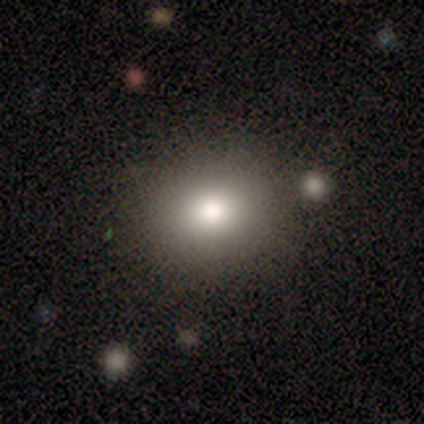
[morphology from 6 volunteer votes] Smooth or featured? smooth (100%)
How rounded? round (67%)
Merging? none (83%)